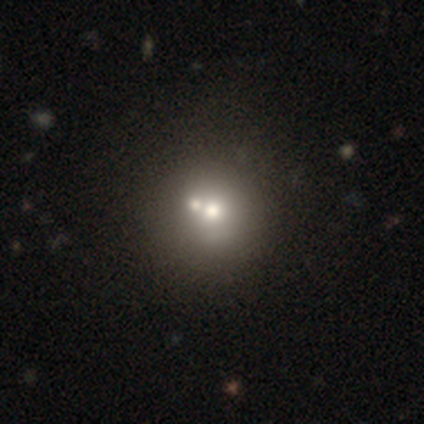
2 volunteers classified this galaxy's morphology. Smooth or featured: smooth — 100%
How rounded: round — 100%
Merging: none — 50% (tied with merger — 50%)